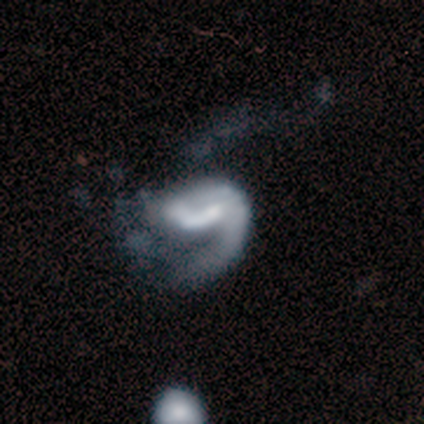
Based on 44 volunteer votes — Q: Smooth or featured?
A: featured or disk (82%); runner-up: star or artifact (11%)
Q: Edge-on disk?
A: no (100%)
Q: Bar?
A: no (56%); runner-up: weak (31%)
Q: Spiral arms?
A: yes (83%); runner-up: no (17%)
Q: Spiral winding?
A: medium (43%); tied with: loose (43%)
Q: Spiral arm count?
A: 1 (83%); runner-up: 2 (13%)
Q: Bulge size?
A: moderate (44%); runner-up: small (22%)
Q: Merging?
A: major disturbance (59%); runner-up: none (21%)